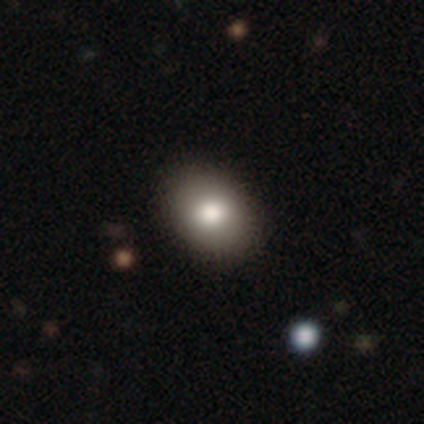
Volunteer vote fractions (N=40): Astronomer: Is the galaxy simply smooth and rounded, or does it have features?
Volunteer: smooth — 85%.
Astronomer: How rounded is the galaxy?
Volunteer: in between — 79%.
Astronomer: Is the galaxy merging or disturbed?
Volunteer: none — 84%.